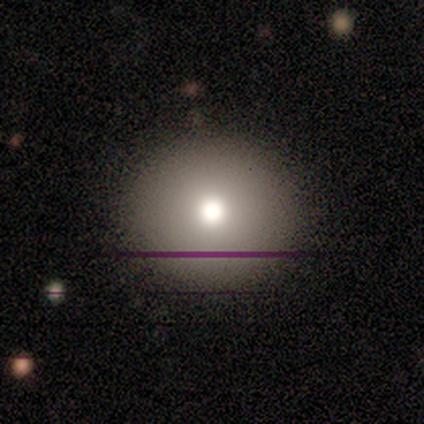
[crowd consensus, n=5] This appears to be a smooth galaxy with no disk features (60%) that is round (100%). Merging: none (100%).